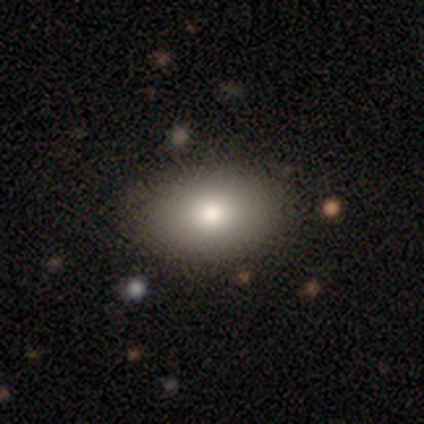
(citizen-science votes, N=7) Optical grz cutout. It shows a smooth galaxy with no disk features (43%, tied with featured or disk) that is in between round and cigar-shaped (100%). Merging: none (83%).